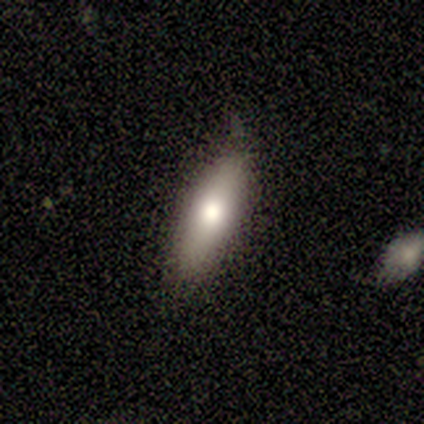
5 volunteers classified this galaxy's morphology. This appears to be a smooth galaxy with no disk features (60%) that is in between round and cigar-shaped (100%). Merging: none (80%).